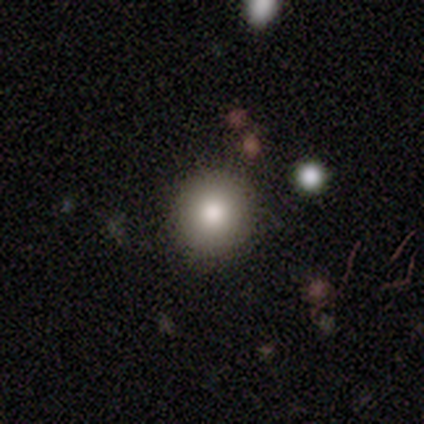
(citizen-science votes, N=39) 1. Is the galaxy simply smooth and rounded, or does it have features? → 85% smooth, 10% featured or disk, 5% star or artifact.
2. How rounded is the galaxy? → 94% round, 6% in between, 0% cigar-shaped.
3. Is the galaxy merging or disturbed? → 89% none, 8% minor disturbance, 3% merger, 0% major disturbance.